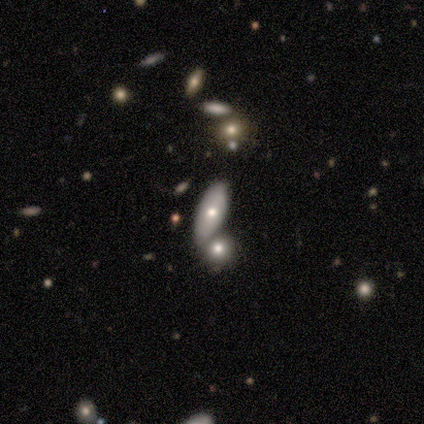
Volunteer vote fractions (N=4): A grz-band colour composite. It shows a smooth galaxy with no disk features (75%) that is in between round and cigar-shaped (100%). Merging: none (50%, tied with merger).